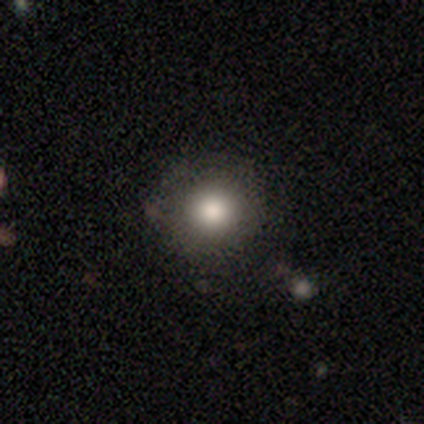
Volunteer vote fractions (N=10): A smooth galaxy with no disk features (90%) that is round (89%). Merging: none (89%).